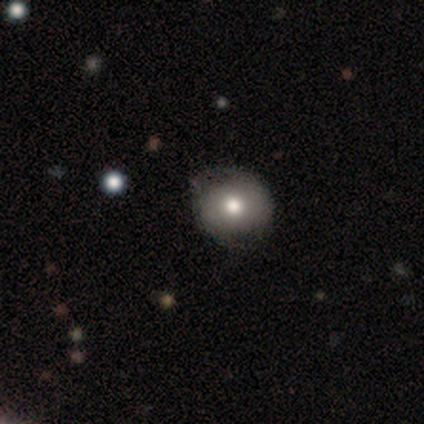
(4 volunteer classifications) Morphology: type=smooth (100%); roundness=round (100%); merging=none (50%).